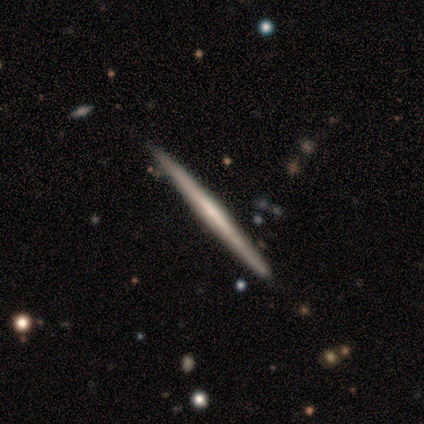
Smooth or featured? 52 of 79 (66%) said featured or disk. Edge-on disk? 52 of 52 (100%) said yes. Edge-on bulge? 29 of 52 (56%) said none. Merging? 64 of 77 (83%) said none.